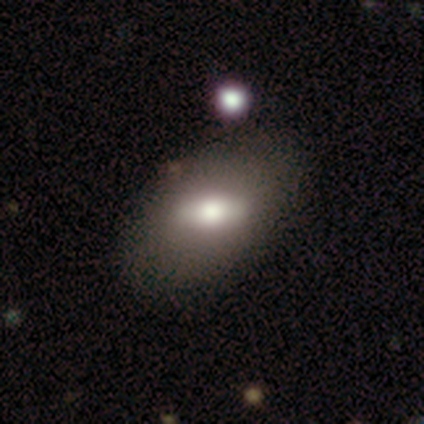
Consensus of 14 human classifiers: smooth_or_featured: smooth (p=0.57) [alt: featured or disk p=0.36]
how_rounded: in between (p=1.00)
merging: none (p=0.85) [alt: minor disturbance p=0.08]